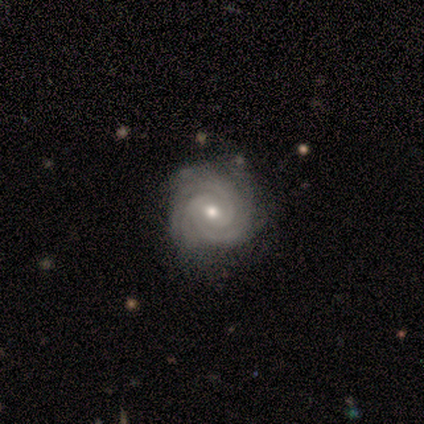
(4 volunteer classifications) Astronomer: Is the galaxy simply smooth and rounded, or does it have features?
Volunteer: featured or disk — 100%.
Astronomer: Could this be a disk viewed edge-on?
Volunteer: no — 75%.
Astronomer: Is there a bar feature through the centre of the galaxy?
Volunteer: no — 67%.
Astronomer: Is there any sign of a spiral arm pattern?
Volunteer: yes — 100%.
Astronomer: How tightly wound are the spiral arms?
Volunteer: tight — 100%.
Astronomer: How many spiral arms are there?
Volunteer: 3 — 33%, tied with more than 4 and can't tell at 33%.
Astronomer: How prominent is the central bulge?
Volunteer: moderate — 67%.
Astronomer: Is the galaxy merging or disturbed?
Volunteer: none — 75%.